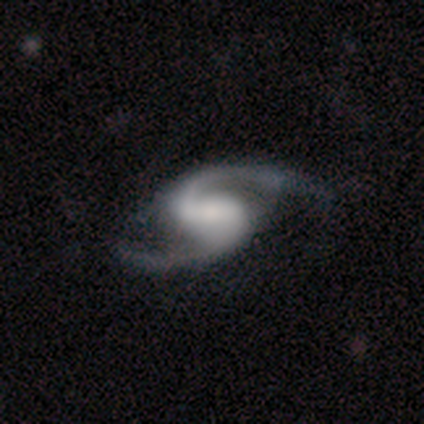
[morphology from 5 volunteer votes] smooth-or-featured: featured or disk: 100% | smooth: 0% | star or artifact: 0%
  disk-edge-on: no: 100% | yes: 0%
    bar: weak: 60% | strong: 40% | no: 0%
    has-spiral-arms: yes: 100% | no: 0%
      spiral-winding: loose: 60% | tight: 20% | medium: 20%
      spiral-arm-count: 2: 100% | 1: 0% | 3: 0% | 4: 0% | more than 4: 0% | can't tell: 0%
    bulge-size: large: 40% (tied) | moderate: 40% (tied) | small: 20% | dominant: 0% | none: 0%
  merging: none: 100% | minor disturbance: 0% | major disturbance: 0% | merger: 0%